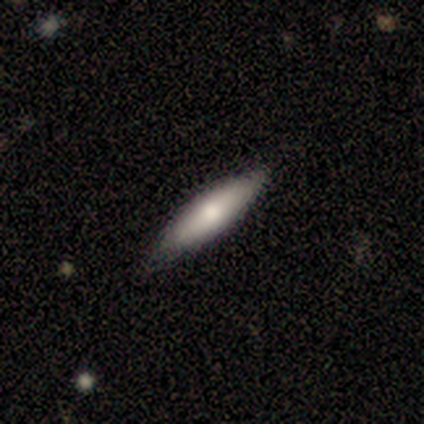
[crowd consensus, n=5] This is clearly a smooth galaxy (80%). How rounded: likely cigar-shaped (75%). Merging: clearly none (100%).